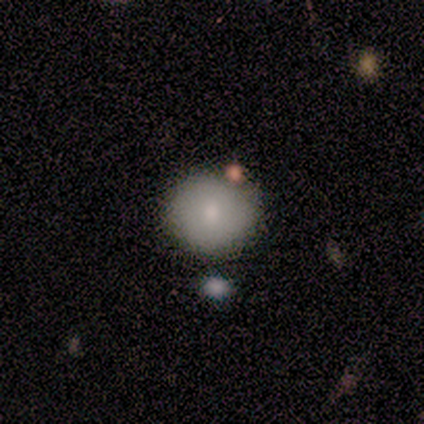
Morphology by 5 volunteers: This appears to be a smooth galaxy with no disk features (80%) that is round (100%). Merging: none (80%).